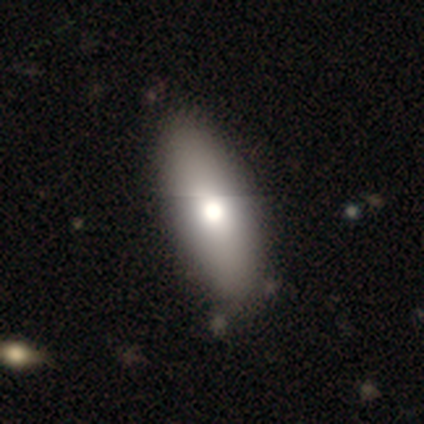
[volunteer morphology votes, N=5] Volunteers were most divided on "smooth or featured": smooth: 60%, featured or disk: 20%, star or artifact: 20%. More confident: how rounded — in between (100%); merging — none (100%).